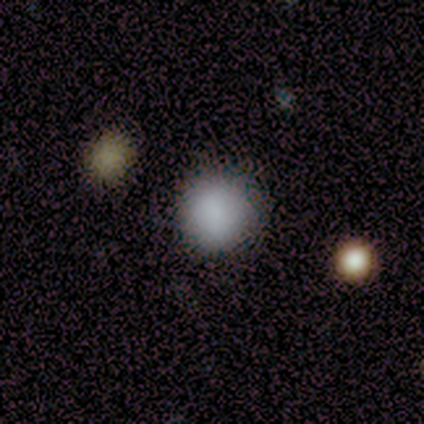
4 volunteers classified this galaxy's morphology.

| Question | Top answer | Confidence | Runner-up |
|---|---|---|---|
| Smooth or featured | smooth | 75% | star or artifact (25%) |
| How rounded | round | 100% | — |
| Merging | none | 100% | — |